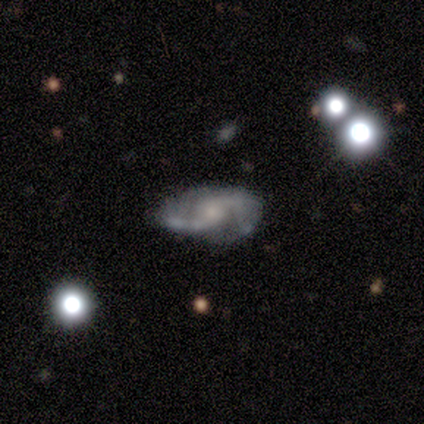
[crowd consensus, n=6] Smooth or featured: featured or disk — 100%
Edge-on disk: no — 100%
Bar: weak — 50% (tied with no — 50%)
Spiral arms: yes — 100%
Spiral winding: medium — 50% (loose — 33%)
Spiral arm count: 2 — 100%
Bulge size: small — 67% (moderate — 17%)
Merging: none — 67% (minor disturbance — 33%)